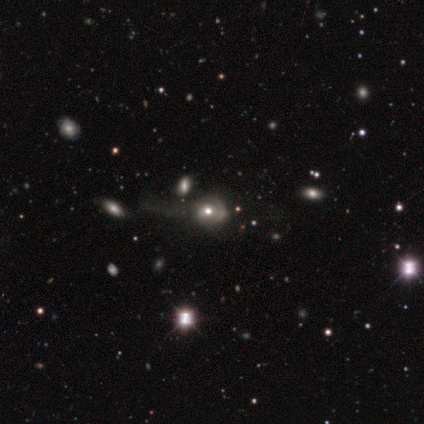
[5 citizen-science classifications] smooth-or-featured: featured or disk: 60% | smooth: 20% | star or artifact: 20%
  disk-edge-on: no: 67% | yes: 33%
    bar: no: 100% | strong: 0% | weak: 0%
    has-spiral-arms: yes: 50% (tied) | no: 50% (tied)
      spiral-winding: tight: 100% | medium: 0% | loose: 0%
      spiral-arm-count: can't tell: 100% | 1: 0% | 2: 0% | 3: 0% | 4: 0% | more than 4: 0%
    bulge-size: moderate: 100% | dominant: 0% | large: 0% | small: 0% | none: 0%
  merging: none: 100% | minor disturbance: 0% | major disturbance: 0% | merger: 0%